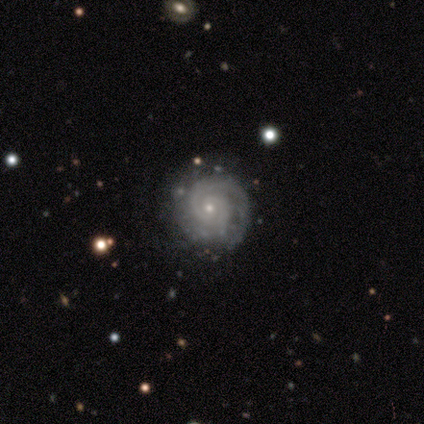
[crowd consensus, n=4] Overall: featured or disk (100%). Edge-on disk: no (100%). Bar: no (75%). Spiral arms: yes (100%). Spiral arm count: 2 (50%; 3 25%). Spiral winding: tight (100%). Bulge size: moderate (50%, tied with small). Merging: none (100%).